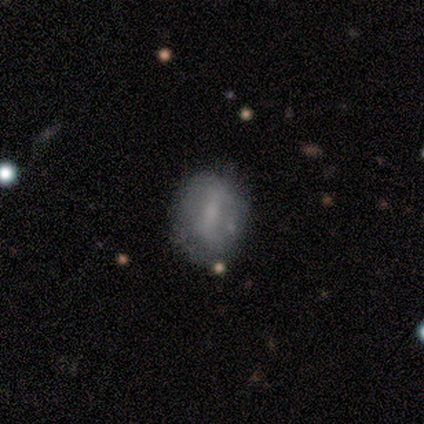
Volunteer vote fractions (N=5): Overall: smooth (80%). How rounded: round (50%, tied with in between). Merging: none (100%).